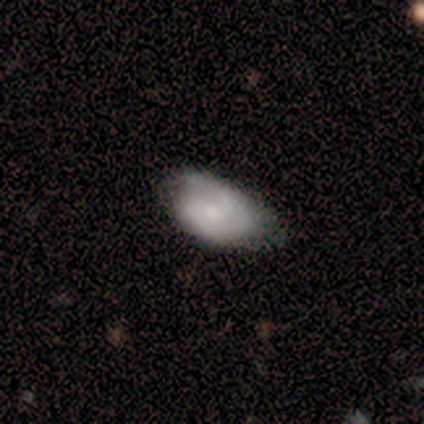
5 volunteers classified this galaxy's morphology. featured or disk 80%, smooth 20%, star or artifact 0%. Down the decision tree: edge-on disk — no (100%); bar — weak (50%, tied with no); spiral arms — yes (75%); spiral arm count — can't tell (67%); spiral winding — tight (33%, tied with medium and loose); bulge size — small (50%); merging — minor disturbance (60%).